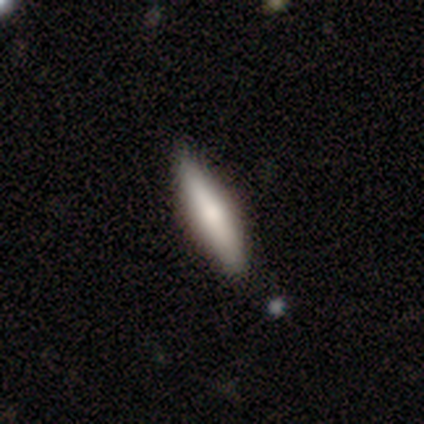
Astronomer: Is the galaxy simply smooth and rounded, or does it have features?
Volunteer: smooth — 64%.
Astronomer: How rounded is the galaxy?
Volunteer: cigar-shaped — 84%.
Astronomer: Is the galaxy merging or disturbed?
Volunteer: none — 76%.